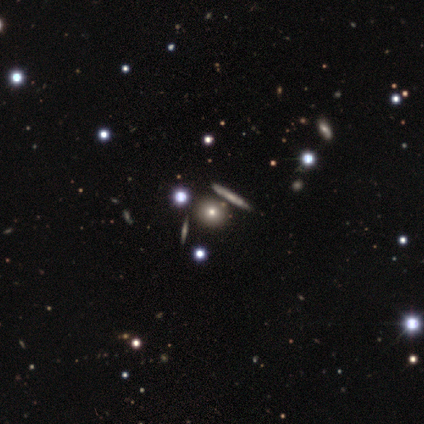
Smooth or featured? smooth (52%)
How rounded? round (71%)
Merging? none (81%)